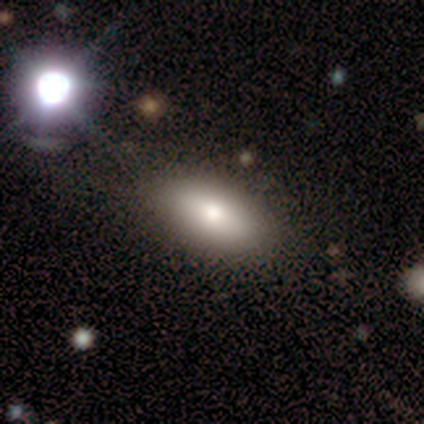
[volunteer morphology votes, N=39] Volunteers were most divided on "smooth or featured": smooth: 69%, featured or disk: 18%, star or artifact: 13%. More confident: how rounded — in between (100%); merging — none (76%).